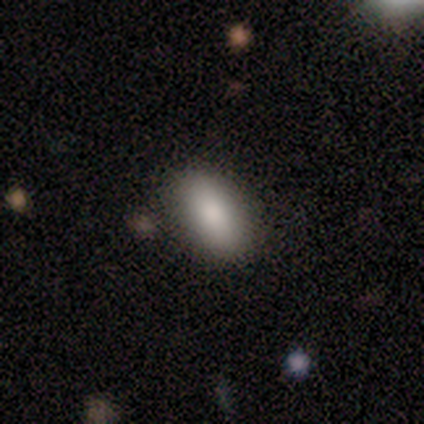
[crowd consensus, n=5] Smooth or featured: smooth — 80% (featured or disk — 20%)
How rounded: in between — 100%
Merging: none — 80% (merger — 20%)